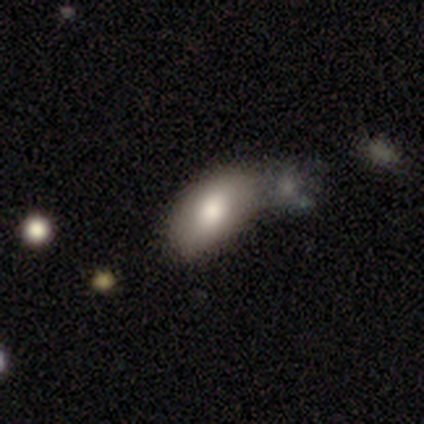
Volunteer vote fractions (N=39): smooth 87%, featured or disk 10%, star or artifact 3%. Down the decision tree: how rounded — in between (97%); merging — merger (45%).